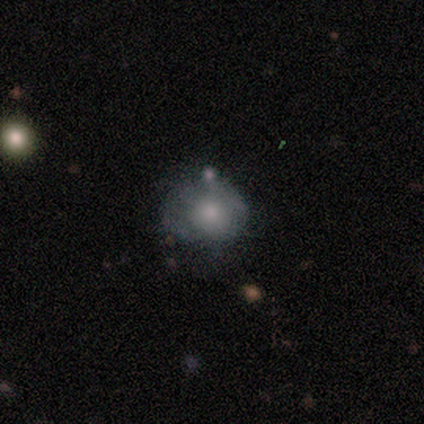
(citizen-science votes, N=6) featured or disk 67%, smooth 33%, star or artifact 0%. Down the decision tree: edge-on disk — no (100%); bar — no (100%); spiral arms — no (75%); bulge size — moderate (75%); merging — none (50%).